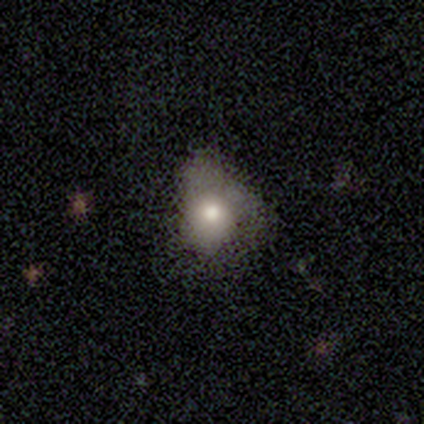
Smooth or featured? 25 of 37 (68%) said smooth. How rounded? 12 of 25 (48%) said round. Merging? 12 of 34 (35%) said none.